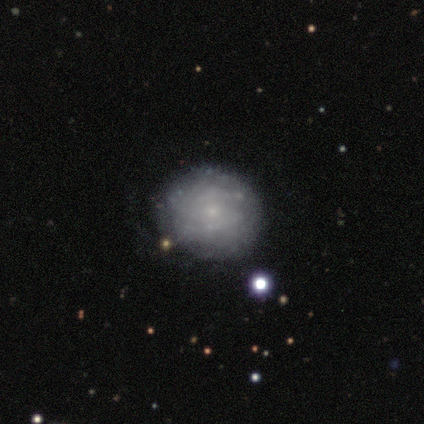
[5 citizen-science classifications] Smooth or featured? smooth (80%)
How rounded? round (100%)
Merging? none (100%)